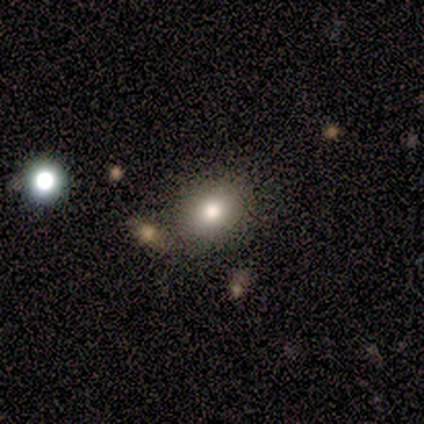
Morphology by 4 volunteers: Smooth or featured: smooth — 75% (featured or disk — 25%)
How rounded: round — 67% (in between — 33%)
Merging: none — 75% (merger — 25%)